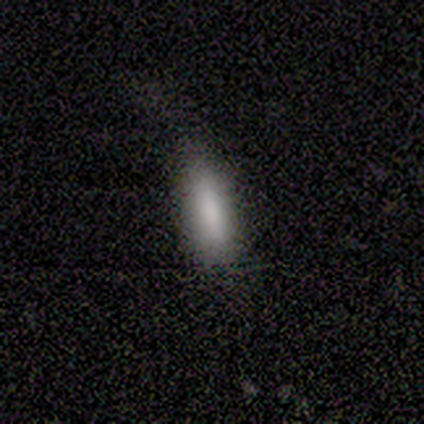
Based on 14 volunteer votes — A smooth galaxy with no disk features (93%) that is cigar-shaped (69%).

Vote fractions:
- Smooth or featured? smooth: 93% / featured or disk: 7% / star or artifact: 0%
- How rounded? cigar-shaped: 69% / in between: 31% / round: 0%
- Merging? none: 79% / minor disturbance: 14% / merger: 7% / major disturbance: 0%